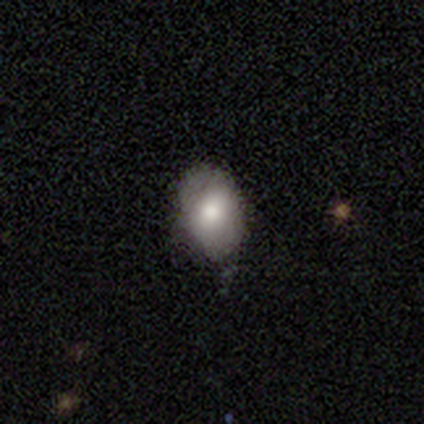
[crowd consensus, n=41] smooth-or-featured: smooth: 71% | featured or disk: 17% | star or artifact: 12%
  how-rounded: in between: 76% | round: 24% | cigar-shaped: 0%
  merging: none: 67% | minor disturbance: 28% | merger: 6% | major disturbance: 0%